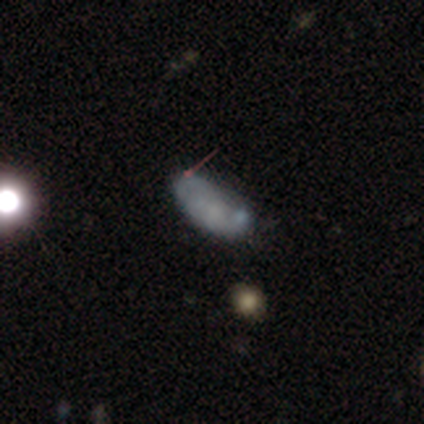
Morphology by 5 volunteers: Smooth or featured?
  - smooth: 60% *
  - star or artifact: 40%
  - featured or disk: 0%
How rounded?
  - in between: 100% *
  - round: 0%
  - cigar-shaped: 0%
Merging?
  - none: 100% *
  - minor disturbance: 0%
  - major disturbance: 0%
  - merger: 0%